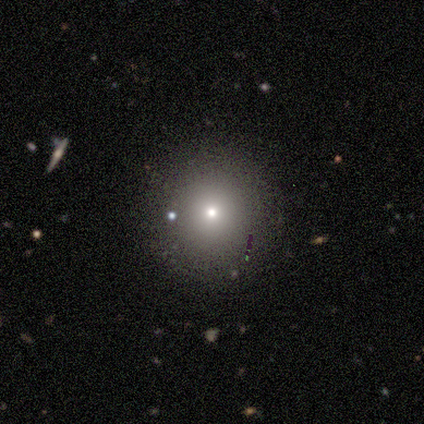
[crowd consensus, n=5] Morphology: type=smooth (80%); roundness=round (100%); merging=none (100%).